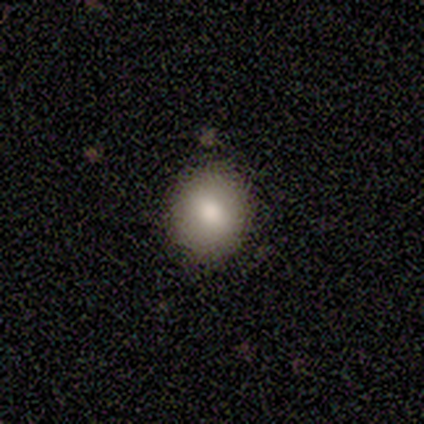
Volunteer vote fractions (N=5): This appears to be a smooth galaxy with no disk features (40%, tied with featured or disk) that is round (50%, tied with in between). Merging: none (100%).